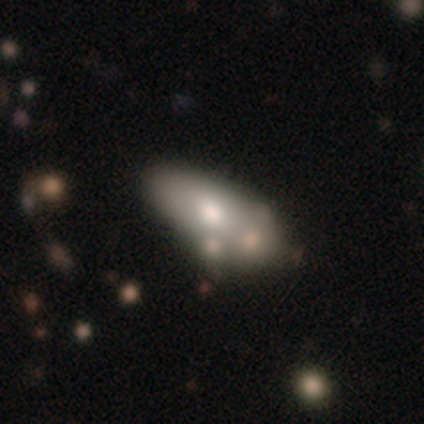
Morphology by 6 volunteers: smooth_or_featured: featured or disk (p=0.67) [alt: smooth p=0.17]
disk_edge_on: no (p=1.00)
bar: no (p=1.00)
has_spiral_arms: no (p=1.00)
bulge_size: moderate (p=1.00)
merging: none (p=0.60) [alt: minor disturbance p=0.40]